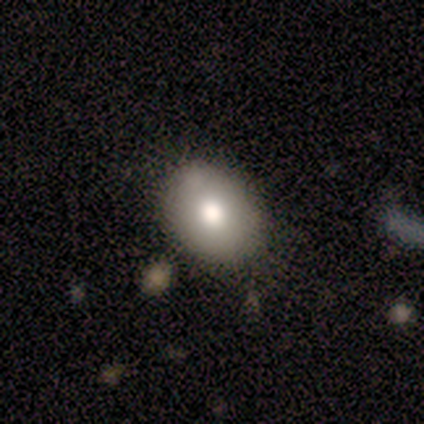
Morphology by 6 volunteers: smooth 100%, featured or disk 0%, star or artifact 0%. Down the decision tree: how rounded — in between (100%); merging — none (83%).